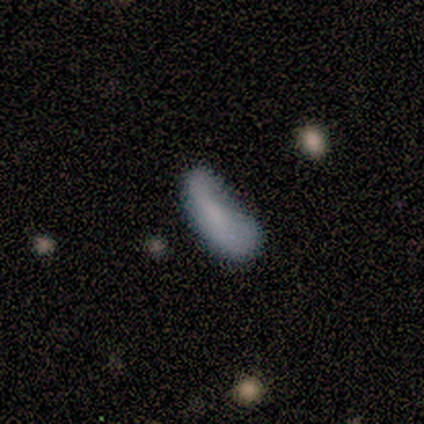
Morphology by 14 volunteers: This appears to be a smooth galaxy with no disk features (64%) that is in between round and cigar-shaped (89%). Merging: minor disturbance (46%).